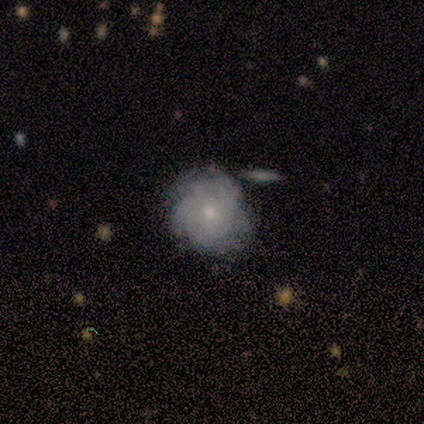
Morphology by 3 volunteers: Smooth or featured?
  - featured or disk: 67% *
  - smooth: 33%
  - star or artifact: 0%
Edge-on disk?
  - no: 100% *
  - yes: 0%
Bar?
  - weak: 50% * (tied)
  - no: 50% * (tied)
  - strong: 0%
Spiral arms?
  - yes: 100% *
  - no: 0%
Spiral winding?
  - tight: 100% *
  - medium: 0%
  - loose: 0%
Spiral arm count?
  - more than 4: 50% * (tied)
  - can't tell: 50% * (tied)
  - 1: 0%
  - 2: 0%
  - 3: 0%
  - 4: 0%
Bulge size?
  - moderate: 50% * (tied)
  - none: 50% * (tied)
  - dominant: 0%
  - large: 0%
  - small: 0%
Merging?
  - none: 100% *
  - minor disturbance: 0%
  - major disturbance: 0%
  - merger: 0%